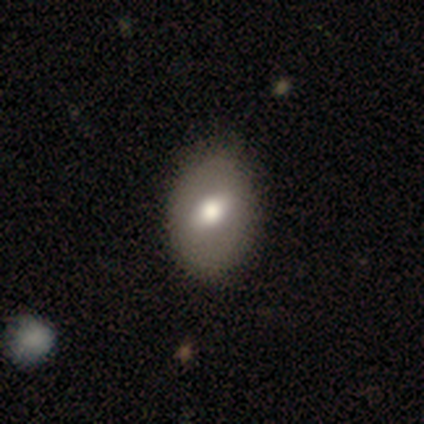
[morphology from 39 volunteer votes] Smooth or featured? smooth (62%)
How rounded? in between (75%)
Merging? none (58%)